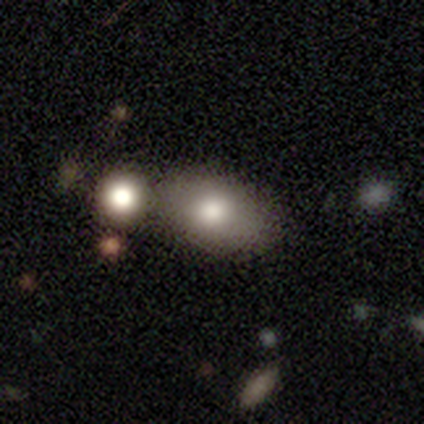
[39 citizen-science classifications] This appears to be a smooth galaxy with no disk features (79%) that is in between round and cigar-shaped (87%). Merging: none (46%).